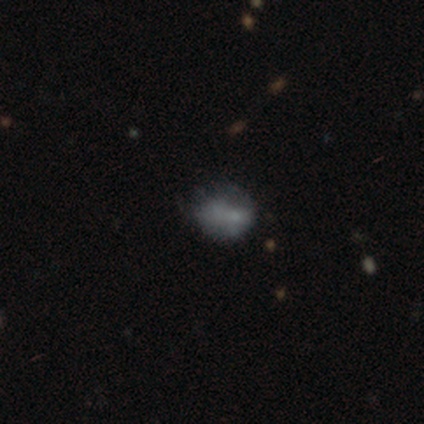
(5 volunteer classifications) Volunteers were most divided on "smooth or featured": star or artifact: 60%, smooth: 20%, featured or disk: 20%.